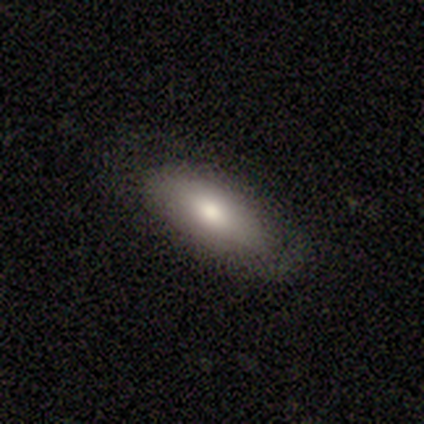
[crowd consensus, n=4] smooth 75%, featured or disk 25%, star or artifact 0%. Down the decision tree: how rounded — in between (100%); merging — none (75%).